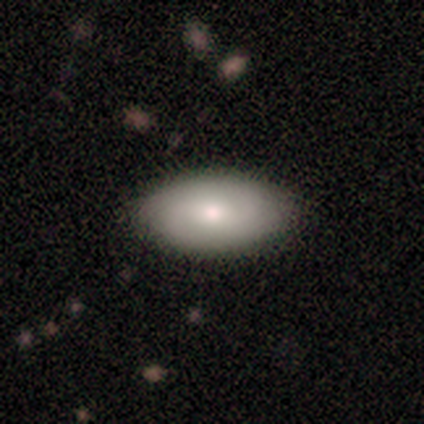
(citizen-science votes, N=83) Smooth or featured?
  - smooth: 63% *
  - featured or disk: 27%
  - star or artifact: 11%
How rounded?
  - in between: 96% *
  - cigar-shaped: 4%
  - round: 0%
Merging?
  - none: 89% *
  - minor disturbance: 11%
  - major disturbance: 0%
  - merger: 0%